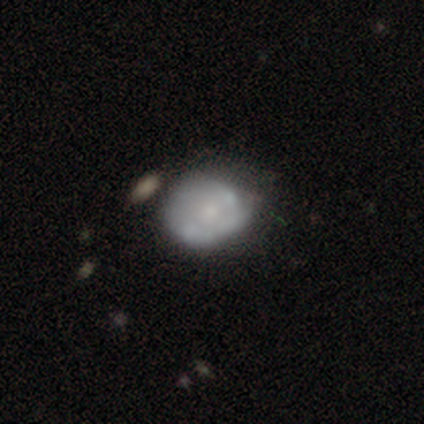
smooth 60%, featured or disk 40%, star or artifact 0%. Down the decision tree: how rounded — in between (67%); merging — minor disturbance (60%).